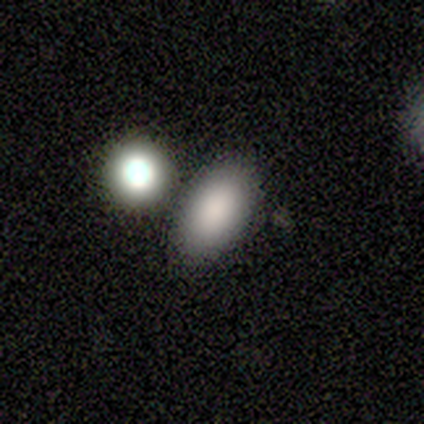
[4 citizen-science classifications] Morphology: type=smooth (100%); roundness=in between (75%); merging=none (50%, tied with merger).